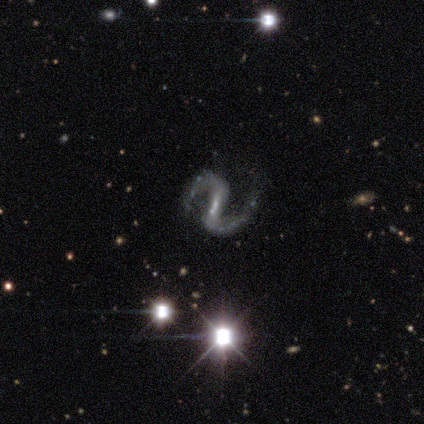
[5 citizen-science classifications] featured or disk 100%, smooth 0%, star or artifact 0%. Down the decision tree: edge-on disk — no (100%); bar — weak (80%); spiral arms — yes (100%); spiral arm count — 2 (100%); spiral winding — medium (40%, tied with loose); bulge size — moderate (40%, tied with small); merging — none (80%).